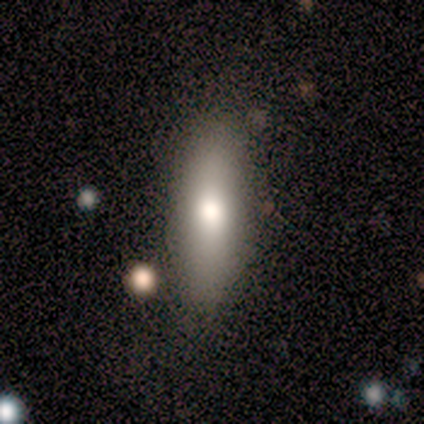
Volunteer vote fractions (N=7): smooth_or_featured: smooth (p=0.57) [alt: featured or disk p=0.43]
how_rounded: cigar-shaped (p=0.75) [alt: in between p=0.25]
merging: none (p=0.57) [alt: minor disturbance p=0.43]